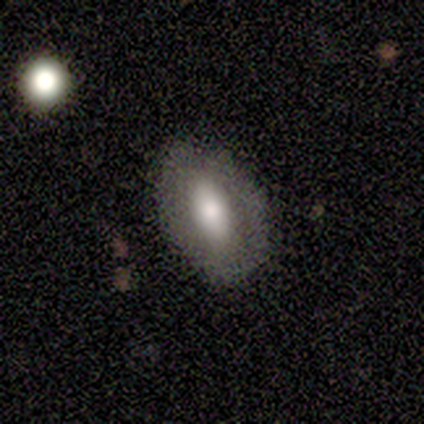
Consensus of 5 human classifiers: This is likely a smooth galaxy (60%). How rounded: clearly in between (100%). Merging: clearly none (80%).